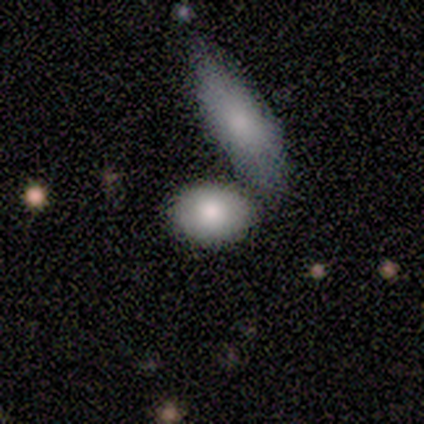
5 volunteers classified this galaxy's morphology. Smooth or featured?
  - smooth: 100% *
  - featured or disk: 0%
  - star or artifact: 0%
How rounded?
  - in between: 40% * (tied)
  - cigar-shaped: 40% * (tied)
  - round: 20%
Merging?
  - minor disturbance: 40% * (tied)
  - merger: 40% * (tied)
  - none: 20%
  - major disturbance: 0%